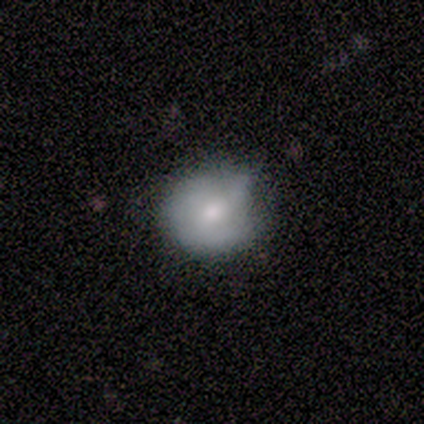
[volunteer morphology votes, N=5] Overall: smooth (80%). How rounded: round (50%; in between 25%). Merging: none (40%, tied with minor disturbance).